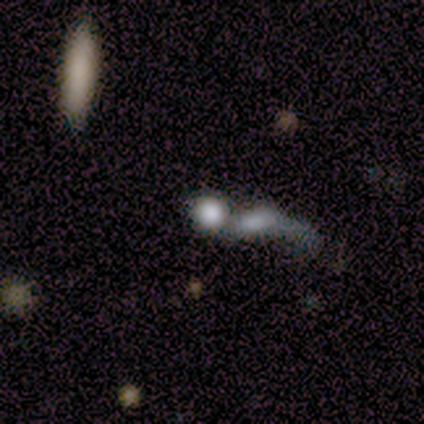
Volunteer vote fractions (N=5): A smooth galaxy with no disk features (60%) that is round (67%). Merging: merger (100%).